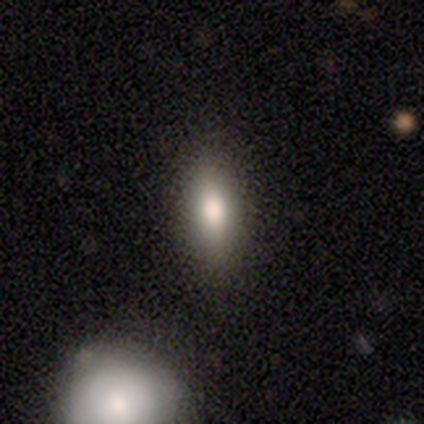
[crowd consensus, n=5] smooth 60%, featured or disk 20%, star or artifact 20%. Down the decision tree: how rounded — in between (100%); merging — none (75%).